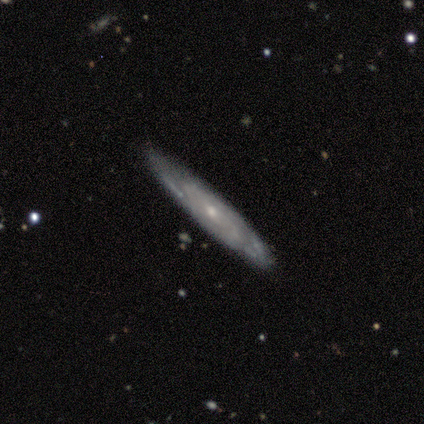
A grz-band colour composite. It shows a featured or disk galaxy (100%) with no bar (100%), tight (67%) spiral arms (100%) and a small central bulge (67%). Merging: none (60%).